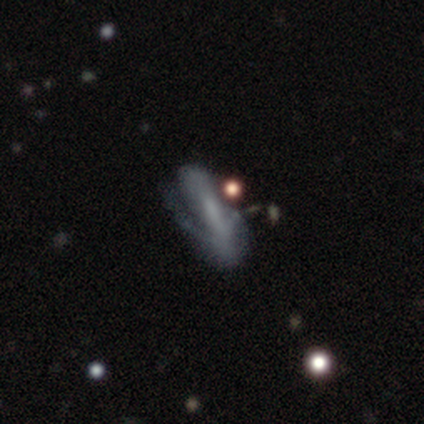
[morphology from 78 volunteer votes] This is likely a featured or disk galaxy (63%). It is clearly not viewed edge-on (84%). Bar: possibly no (56%). Spiral arm pattern: possibly yes (54%). Spiral arm count: possibly 2 (45%). Spiral winding: possibly tight (50%). Central bulge: likely none (68%). Merging: marginally minor disturbance (21%).